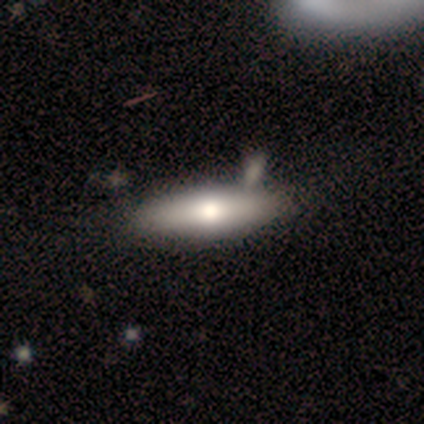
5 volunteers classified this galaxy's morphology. This is marginally a smooth galaxy (40%, tied with featured or disk). How rounded: possibly in between (50%, tied with cigar-shaped). Merging: likely none (75%).